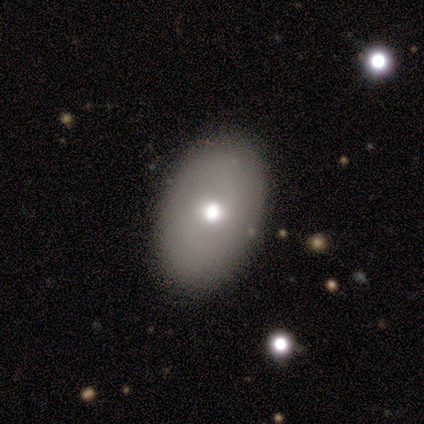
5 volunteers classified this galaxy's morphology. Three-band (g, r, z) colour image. It shows a smooth galaxy with no disk features (60%) that is in between round and cigar-shaped (67%). Merging: none (80%).